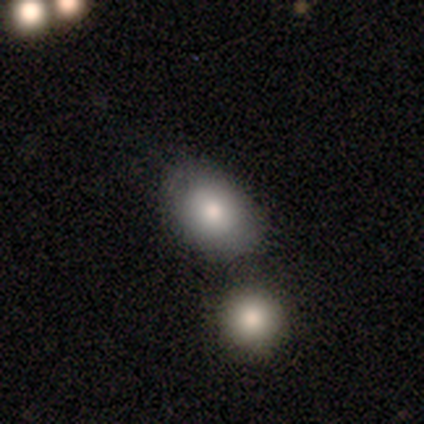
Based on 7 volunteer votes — Morphology: type=smooth (71%); roundness=in between (80%); merging=none (83%).